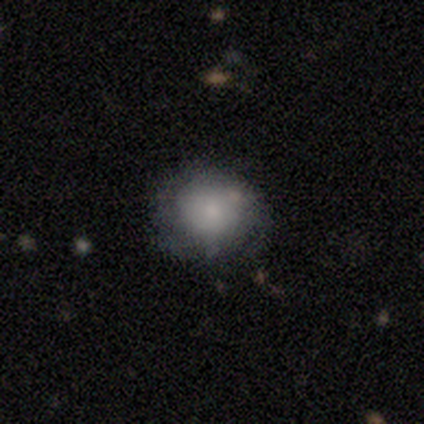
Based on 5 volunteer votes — Overall: smooth (60%; featured or disk 40%). How rounded: round (100%). Merging: minor disturbance (60%; none 40%).